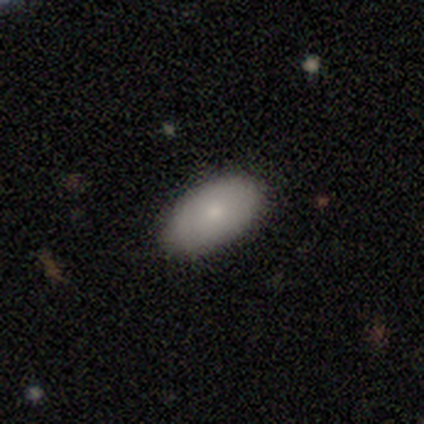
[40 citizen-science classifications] smooth_or_featured: smooth (p=0.78) [alt: featured or disk p=0.12]
how_rounded: in between (p=1.00)
merging: none (p=0.81) [alt: minor disturbance p=0.19]